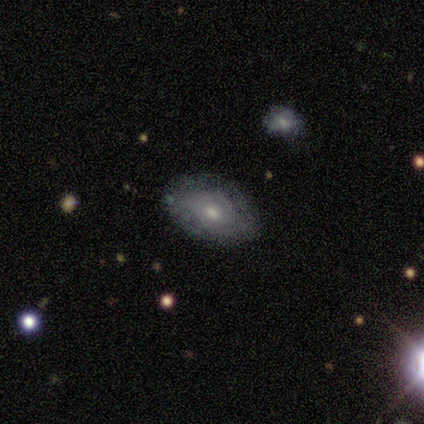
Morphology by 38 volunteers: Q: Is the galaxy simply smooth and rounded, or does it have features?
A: featured or disk — 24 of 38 (63%).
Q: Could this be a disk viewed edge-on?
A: no — 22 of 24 (92%).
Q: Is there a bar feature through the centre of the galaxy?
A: no — 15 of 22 (68%).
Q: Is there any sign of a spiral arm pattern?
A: yes — 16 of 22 (73%).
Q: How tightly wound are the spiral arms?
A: tight — 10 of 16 (62%).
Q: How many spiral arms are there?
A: can't tell — 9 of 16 (56%).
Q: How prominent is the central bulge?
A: moderate — 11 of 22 (50%).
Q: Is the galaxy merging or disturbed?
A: none — 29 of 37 (78%).